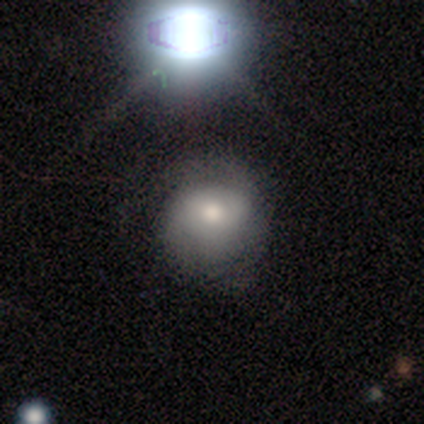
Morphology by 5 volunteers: Smooth or featured?
  - smooth: 40% * (tied)
  - featured or disk: 40% * (tied)
  - star or artifact: 20%
How rounded?
  - round: 100% *
  - in between: 0%
  - cigar-shaped: 0%
Merging?
  - none: 75% *
  - minor disturbance: 25%
  - major disturbance: 0%
  - merger: 0%